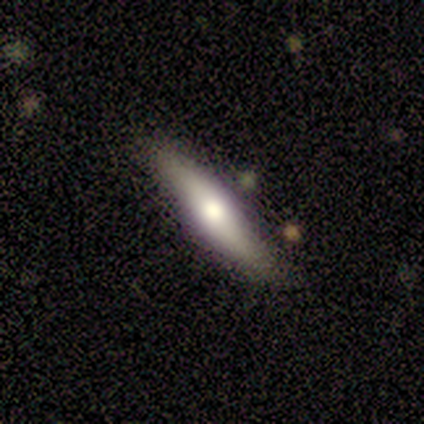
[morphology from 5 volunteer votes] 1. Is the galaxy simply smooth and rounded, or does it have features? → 80% smooth, 20% featured or disk, 0% star or artifact.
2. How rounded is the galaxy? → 100% cigar-shaped, 0% round, 0% in between.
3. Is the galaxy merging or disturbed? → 100% none, 0% minor disturbance, 0% major disturbance, 0% merger.